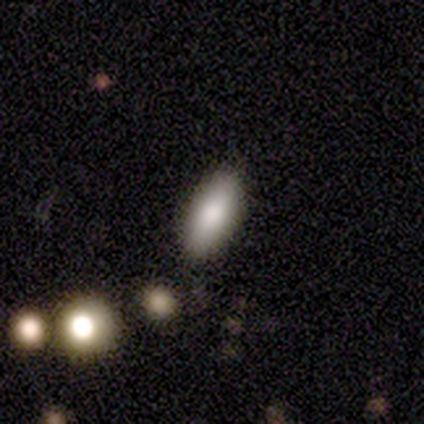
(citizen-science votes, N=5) This is marginally a smooth galaxy (40%, tied with star or artifact). How rounded: clearly in between (100%). Merging: clearly none (100%).